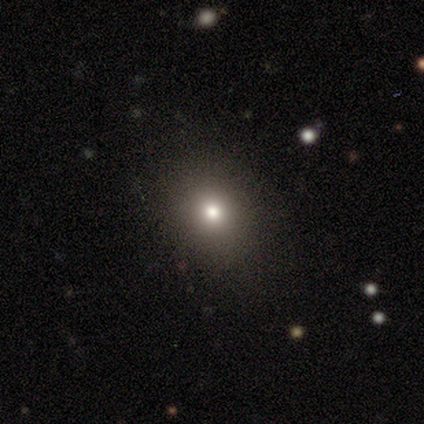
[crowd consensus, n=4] Q: Smooth or featured?
A: smooth (75%); runner-up: star or artifact (25%)
Q: How rounded?
A: round (100%)
Q: Merging?
A: none (100%)